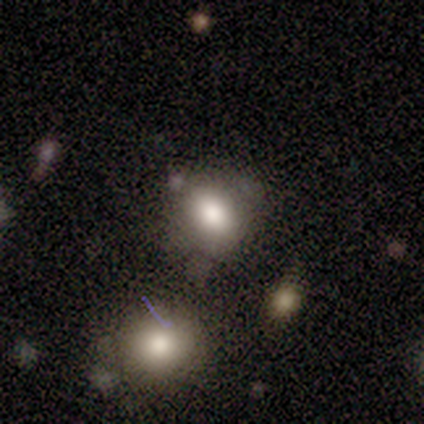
Smooth or featured: smooth — 78% (star or artifact — 22%)
How rounded: in between — 86% (round — 14%)
Merging: none — 57% (minor disturbance — 43%)